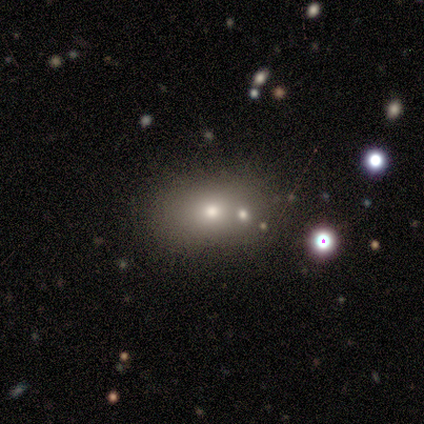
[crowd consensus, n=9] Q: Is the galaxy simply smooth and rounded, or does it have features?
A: smooth — 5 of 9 (56%).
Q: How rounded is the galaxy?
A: in between — 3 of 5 (60%).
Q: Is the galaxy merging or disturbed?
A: merger — 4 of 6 (67%).